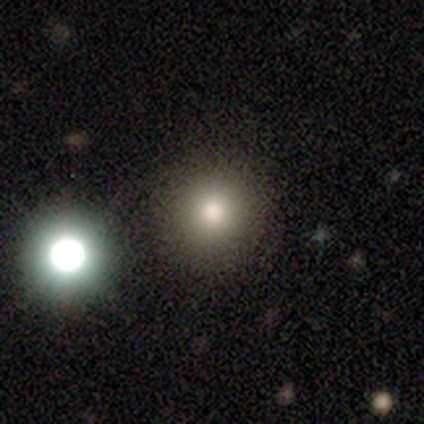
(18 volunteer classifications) Q: Smooth or featured?
A: smooth (78%); runner-up: star or artifact (17%)
Q: How rounded?
A: round (93%); runner-up: in between (7%)
Q: Merging?
A: none (93%); runner-up: major disturbance (7%)